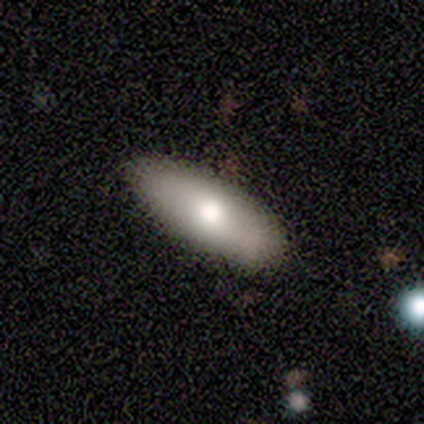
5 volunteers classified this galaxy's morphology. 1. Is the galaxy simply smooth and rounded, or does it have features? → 60% featured or disk, 40% smooth, 0% star or artifact.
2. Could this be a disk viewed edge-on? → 67% no, 33% yes.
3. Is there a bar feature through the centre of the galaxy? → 100% no, 0% strong, 0% weak.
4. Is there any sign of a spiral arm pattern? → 50% yes (tied), 50% no (tied).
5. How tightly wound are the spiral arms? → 100% tight, 0% medium, 0% loose.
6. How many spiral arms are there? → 100% can't tell, 0% 1, 0% 2, 0% 3, 0% 4, 0% more than 4.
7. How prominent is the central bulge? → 100% moderate, 0% dominant, 0% large, 0% small, 0% none.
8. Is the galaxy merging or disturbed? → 100% none, 0% minor disturbance, 0% major disturbance, 0% merger.